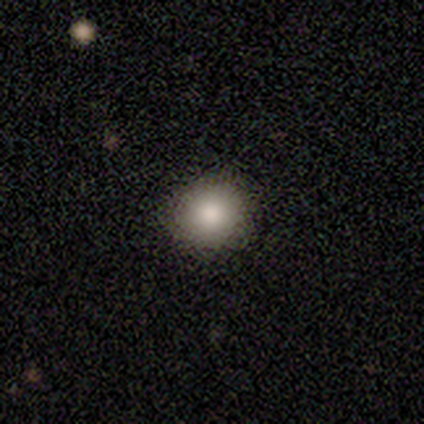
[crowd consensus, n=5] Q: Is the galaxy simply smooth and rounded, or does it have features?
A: smooth — 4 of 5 (80%).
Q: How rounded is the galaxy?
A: round — 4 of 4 (100%).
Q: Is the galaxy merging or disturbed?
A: none — 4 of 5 (80%).